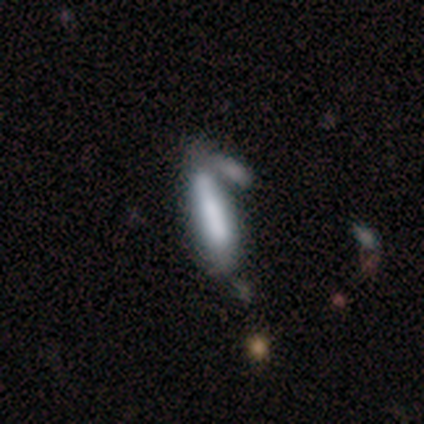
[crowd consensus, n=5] Smooth or featured?
  - smooth: 100% *
  - featured or disk: 0%
  - star or artifact: 0%
How rounded?
  - cigar-shaped: 80% *
  - in between: 20%
  - round: 0%
Merging?
  - merger: 40% *
  - none: 20%
  - minor disturbance: 20%
  - major disturbance: 20%